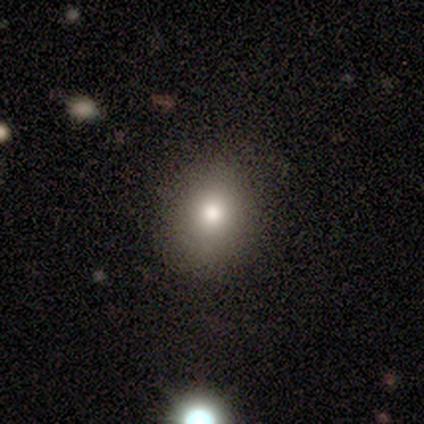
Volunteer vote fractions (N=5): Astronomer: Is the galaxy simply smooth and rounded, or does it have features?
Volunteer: smooth — 100%.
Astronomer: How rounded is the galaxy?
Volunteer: in between — 60% (runner-up: round, 40%).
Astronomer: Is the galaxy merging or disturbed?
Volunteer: none — 100%.